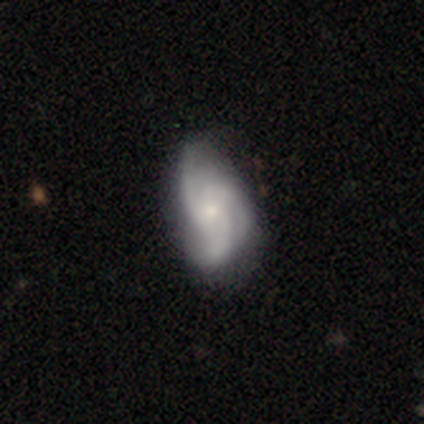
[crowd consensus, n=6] This is clearly a featured or disk galaxy (83%). It is clearly not viewed edge-on (100%). Bar: clearly no (80%). Spiral arm pattern: clearly yes (80%). Spiral arm count: clearly 3 (100%). Spiral winding: likely medium (75%). Central bulge: marginally small (40%). Merging: clearly none (80%).